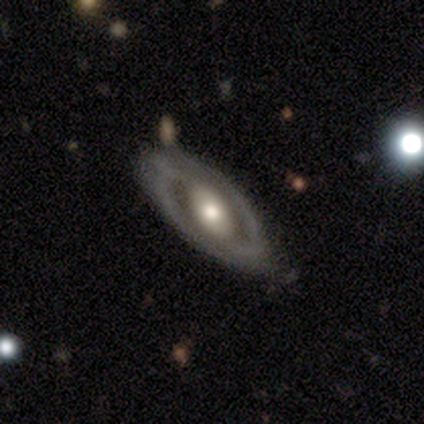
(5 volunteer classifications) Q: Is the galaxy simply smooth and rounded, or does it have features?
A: featured or disk — 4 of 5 (80%).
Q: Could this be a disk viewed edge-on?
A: no — 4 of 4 (100%).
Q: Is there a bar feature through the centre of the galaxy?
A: strong — 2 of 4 (50%, tied with no).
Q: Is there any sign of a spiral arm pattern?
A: yes — 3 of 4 (75%).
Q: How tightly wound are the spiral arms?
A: tight — 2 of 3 (67%).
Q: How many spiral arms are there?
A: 2 — 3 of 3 (100%).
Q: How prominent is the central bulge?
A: moderate — 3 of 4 (75%).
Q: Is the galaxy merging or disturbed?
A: none — 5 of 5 (100%).